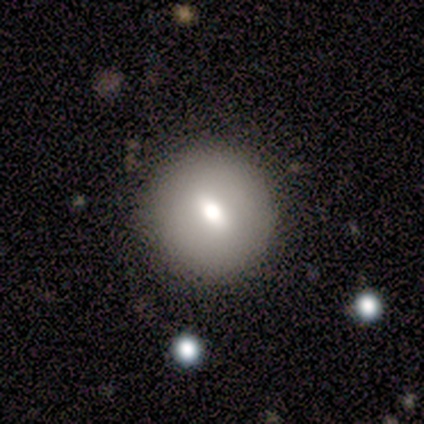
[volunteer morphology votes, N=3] Overall: featured or disk (67%; smooth 33%). Edge-on disk: no (100%). Bar: weak (50%, tied with no). Spiral arms: no (100%). Bulge size: moderate (50%, tied with none). Merging: none (100%).